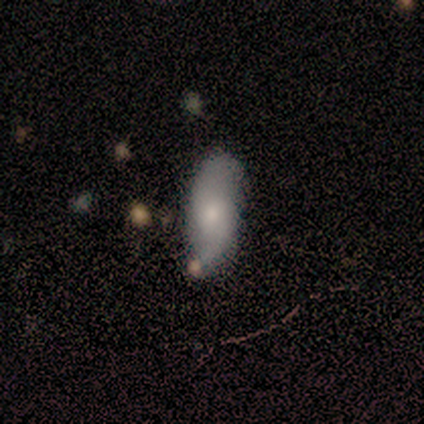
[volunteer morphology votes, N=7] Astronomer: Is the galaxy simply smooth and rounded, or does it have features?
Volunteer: featured or disk — 71%.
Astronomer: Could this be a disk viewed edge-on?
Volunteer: no — 80%.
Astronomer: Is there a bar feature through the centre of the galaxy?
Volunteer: no — 75%.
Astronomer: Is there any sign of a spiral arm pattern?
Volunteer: yes — 75%.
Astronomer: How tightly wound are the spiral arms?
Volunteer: loose — 67%.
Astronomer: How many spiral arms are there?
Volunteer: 2 — 100%.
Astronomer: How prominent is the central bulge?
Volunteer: small — 75%.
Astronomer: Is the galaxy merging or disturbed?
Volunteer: none — 83%.